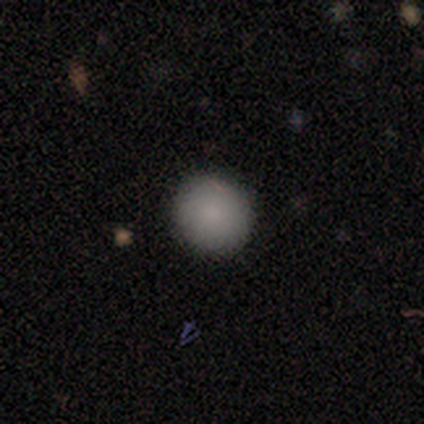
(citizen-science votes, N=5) Morphology: type=smooth (100%); roundness=round (60%); merging=none (100%).